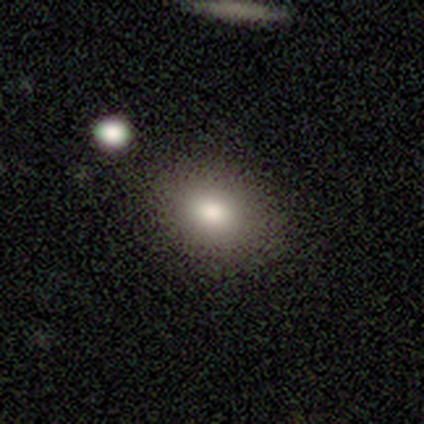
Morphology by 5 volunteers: Smooth or featured? smooth (80%)
How rounded? round (75%)
Merging? none (40%, tied with merger)